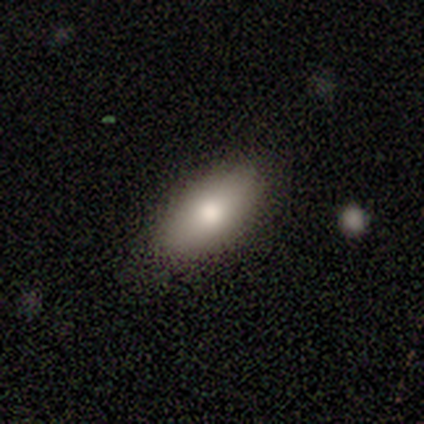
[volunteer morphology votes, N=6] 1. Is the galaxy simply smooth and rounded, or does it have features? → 83% smooth, 17% featured or disk, 0% star or artifact.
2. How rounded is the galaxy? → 100% in between, 0% round, 0% cigar-shaped.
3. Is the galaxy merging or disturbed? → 83% none, 17% minor disturbance, 0% major disturbance, 0% merger.